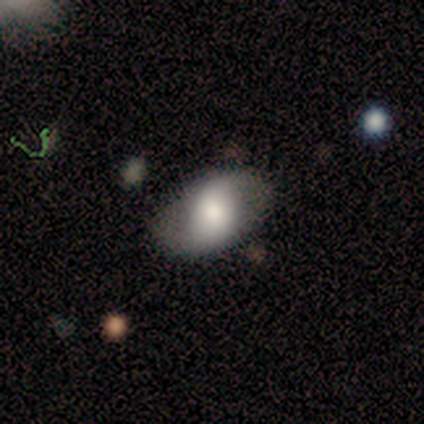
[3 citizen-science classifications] Smooth or featured? featured or disk (100%)
Edge-on disk? no (67%)
Bar? strong (50%, tied with no)
Spiral arms? yes (100%)
Spiral winding? tight (50%, tied with loose)
Spiral arm count? 2 (100%)
Bulge size? large (50%, tied with moderate)
Merging? none (33%, tied with minor disturbance and merger)